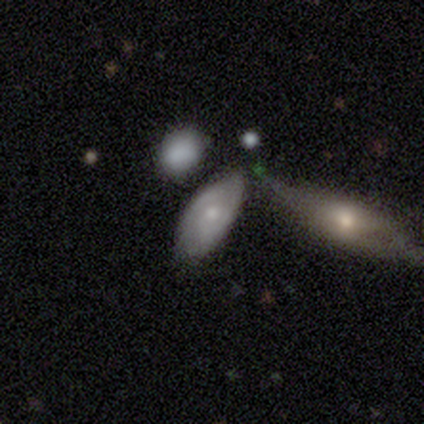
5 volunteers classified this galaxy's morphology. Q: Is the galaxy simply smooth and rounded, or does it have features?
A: featured or disk — 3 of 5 (60%).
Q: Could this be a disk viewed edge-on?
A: no — 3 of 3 (100%).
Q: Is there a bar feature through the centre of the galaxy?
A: no — 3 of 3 (100%).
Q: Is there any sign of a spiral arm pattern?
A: no — 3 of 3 (100%).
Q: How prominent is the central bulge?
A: moderate — 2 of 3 (67%).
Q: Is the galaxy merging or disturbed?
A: none — 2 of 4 (50%).